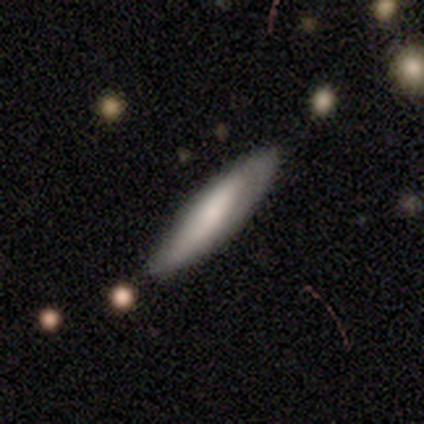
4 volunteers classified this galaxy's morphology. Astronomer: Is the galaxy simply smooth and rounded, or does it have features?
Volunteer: smooth — 75%.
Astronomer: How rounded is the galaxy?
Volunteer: cigar-shaped — 67%.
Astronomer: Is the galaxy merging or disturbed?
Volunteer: none — 75%.